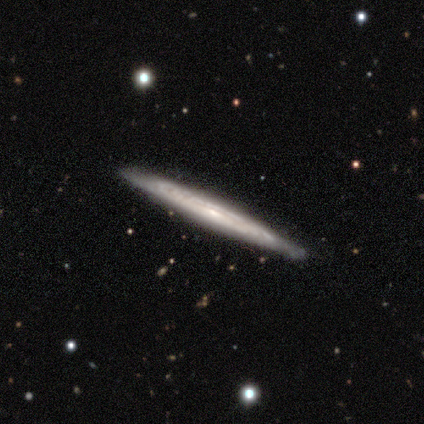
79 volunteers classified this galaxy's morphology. Q: Smooth or featured?
A: featured or disk (81%); runner-up: smooth (16%)
Q: Edge-on disk?
A: yes (89%); runner-up: no (11%)
Q: Edge-on bulge?
A: none (58%); runner-up: rounded (32%)
Q: Merging?
A: none (81%); runner-up: minor disturbance (18%)